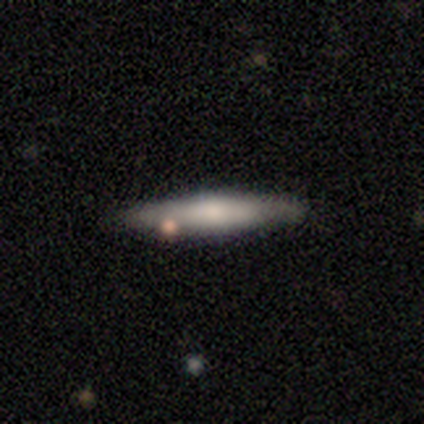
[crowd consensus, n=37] Smooth or featured: smooth — 59% (featured or disk — 41%)
How rounded: cigar-shaped — 95% (in between — 5%)
Merging: none — 84% (minor disturbance — 11%)